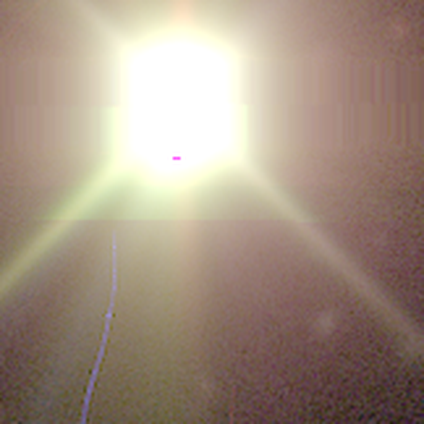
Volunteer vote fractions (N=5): smooth_or_featured: star or artifact (p=1.00)